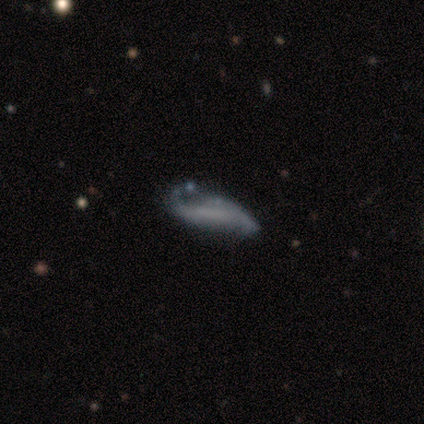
Smooth or featured? smooth (60%)
How rounded? cigar-shaped (67%)
Merging? none (60%)